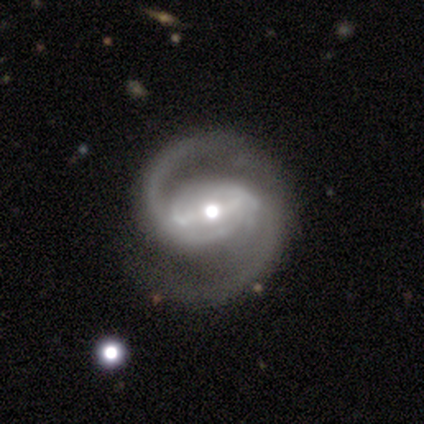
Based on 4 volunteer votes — A featured or disk galaxy (100%) with a strong bar (75%), 2 (75%) medium (75%) spiral arms (100%) and a moderate central bulge (100%). Merging: none (75%).